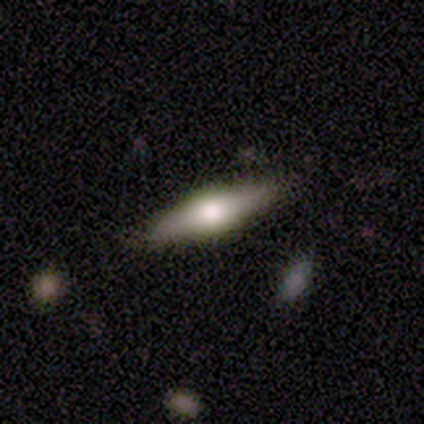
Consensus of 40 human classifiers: This is likely a featured or disk galaxy (62%). It is clearly viewed edge-on (96%). Edge-on bulge: likely rounded (79%). Merging: clearly none (87%).